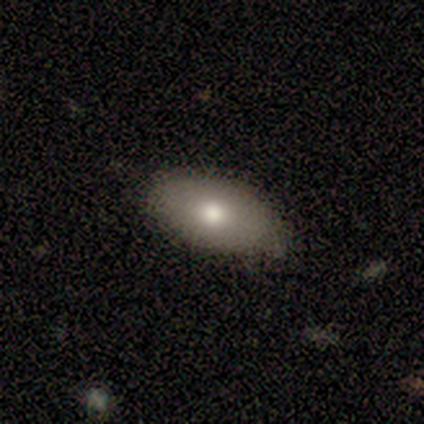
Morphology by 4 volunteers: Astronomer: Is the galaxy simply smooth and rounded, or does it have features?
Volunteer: smooth — 75%.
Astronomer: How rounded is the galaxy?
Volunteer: in between — 100%.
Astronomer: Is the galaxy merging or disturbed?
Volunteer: none — 50%, tied with minor disturbance at 50%.